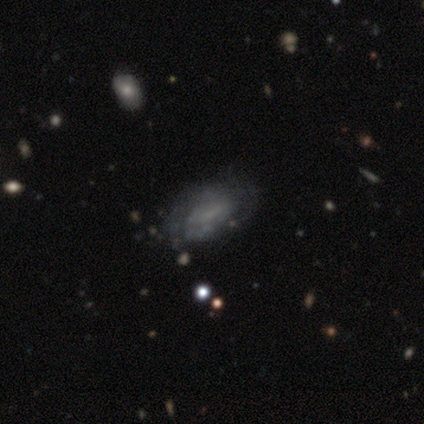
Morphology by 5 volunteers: Smooth or featured? featured or disk (80%)
Edge-on disk? no (75%)
Bar? no (67%)
Spiral arms? no (100%)
Bulge size? small (67%)
Merging? none (60%)